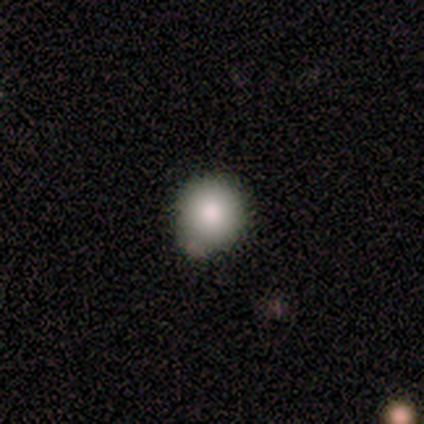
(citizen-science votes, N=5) smooth_or_featured: smooth (p=1.00)
how_rounded: round (p=1.00)
merging: none (p=0.80) [alt: minor disturbance p=0.20]